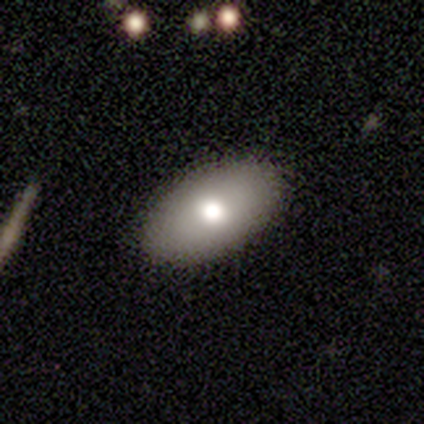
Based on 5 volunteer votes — smooth-or-featured: smooth: 100% | featured or disk: 0% | star or artifact: 0%
  how-rounded: in between: 100% | round: 0% | cigar-shaped: 0%
  merging: none: 100% | minor disturbance: 0% | major disturbance: 0% | merger: 0%